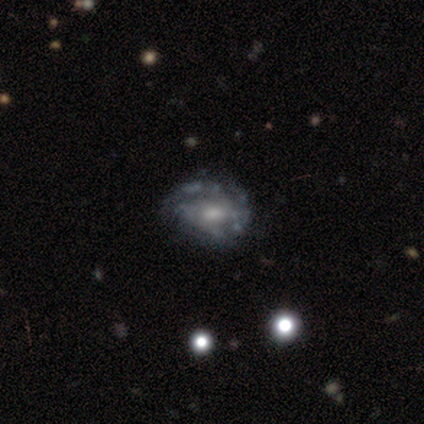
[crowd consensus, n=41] A featured or disk galaxy (83%) with no bar (62%), no spiral arms (62%) and a moderate central bulge (44%, tied with small). Merging: none (31%).